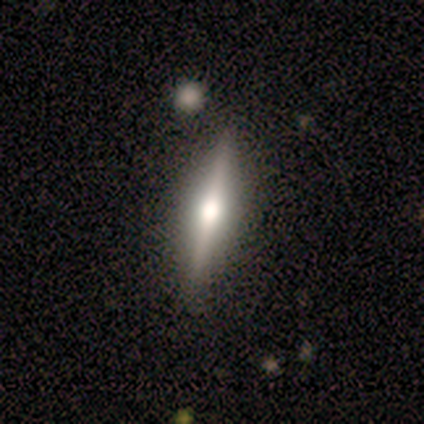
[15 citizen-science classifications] Smooth or featured: featured or disk — 80% (smooth — 20%)
Edge-on disk: yes — 100%
Edge-on bulge: rounded — 83% (boxy — 8%)
Merging: none — 93% (minor disturbance — 7%)